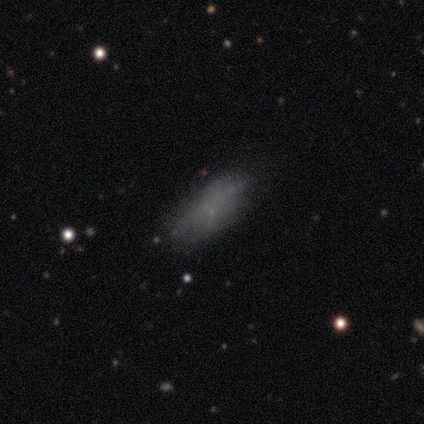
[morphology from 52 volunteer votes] Q: Smooth or featured?
A: smooth (58%); runner-up: featured or disk (33%)
Q: How rounded?
A: in between (93%); runner-up: cigar-shaped (7%)
Q: Merging?
A: none (62%); runner-up: minor disturbance (21%)